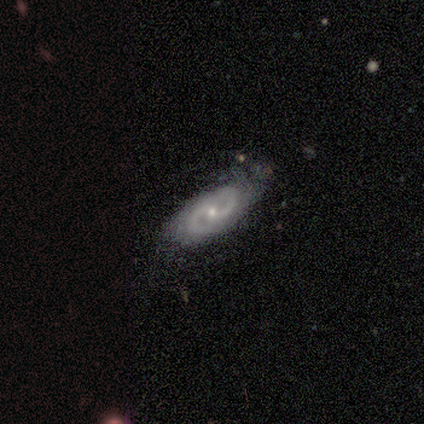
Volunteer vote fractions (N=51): Smooth or featured? 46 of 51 (90%) said featured or disk. Edge-on disk? 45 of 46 (98%) said no. Bar? 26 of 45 (58%) said no. Spiral arms? 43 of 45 (96%) said yes. Spiral winding? 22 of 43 (51%) said tight. Spiral arm count? 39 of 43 (91%) said 2. Bulge size? 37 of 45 (82%) said small. Merging? 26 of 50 (52%) said none.